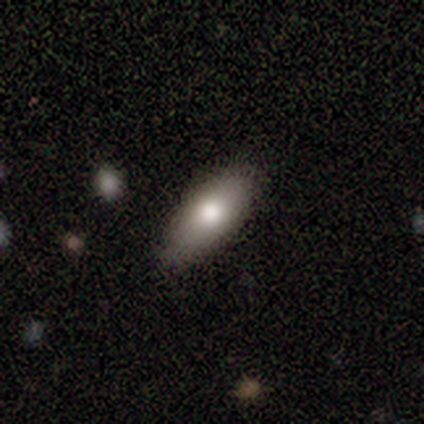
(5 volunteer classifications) A smooth galaxy with no disk features (100%) that is in between round and cigar-shaped (80%).

Vote fractions:
- Smooth or featured? smooth: 100% / featured or disk: 0% / star or artifact: 0%
- How rounded? in between: 80% / cigar-shaped: 20% / round: 0%
- Merging? none: 80% / minor disturbance: 20% / major disturbance: 0% / merger: 0%